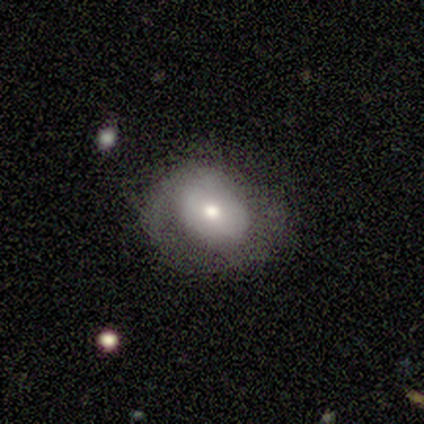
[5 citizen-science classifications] smooth_or_featured: featured or disk (p=0.60) [alt: smooth p=0.40]
disk_edge_on: no (p=1.00)
bar: no (p=1.00)
has_spiral_arms: no (p=0.67) [alt: yes p=0.33]
bulge_size: small (p=0.67) [alt: moderate p=0.33]
merging: none (p=1.00)